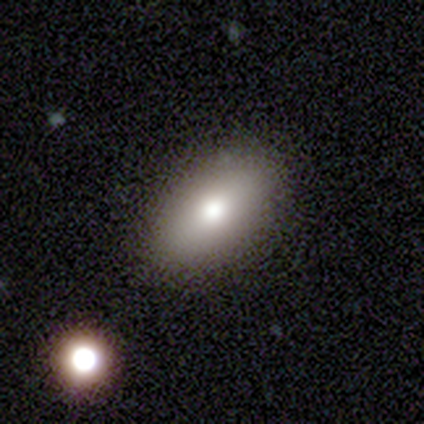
This appears to be a smooth galaxy with no disk features (100%) that is in between round and cigar-shaped (60%). Merging: none (100%).